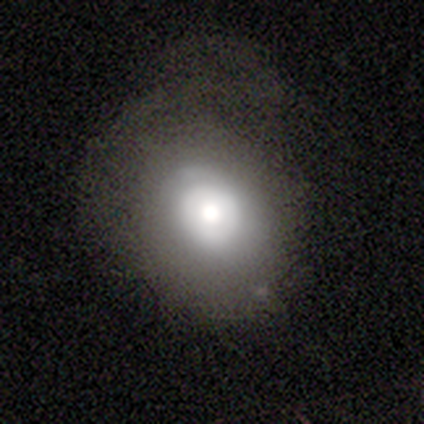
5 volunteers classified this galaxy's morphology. Smooth or featured?
  - featured or disk: 60% *
  - smooth: 40%
  - star or artifact: 0%
Edge-on disk?
  - no: 67% *
  - yes: 33%
Bar?
  - no: 100% *
  - strong: 0%
  - weak: 0%
Spiral arms?
  - yes: 50% * (tied)
  - no: 50% * (tied)
Spiral winding?
  - tight: 100% *
  - medium: 0%
  - loose: 0%
Spiral arm count?
  - 2: 100% *
  - 1: 0%
  - 3: 0%
  - 4: 0%
  - more than 4: 0%
  - can't tell: 0%
Bulge size?
  - moderate: 50% * (tied)
  - none: 50% * (tied)
  - dominant: 0%
  - large: 0%
  - small: 0%
Merging?
  - none: 40% * (tied)
  - minor disturbance: 40% * (tied)
  - merger: 20%
  - major disturbance: 0%